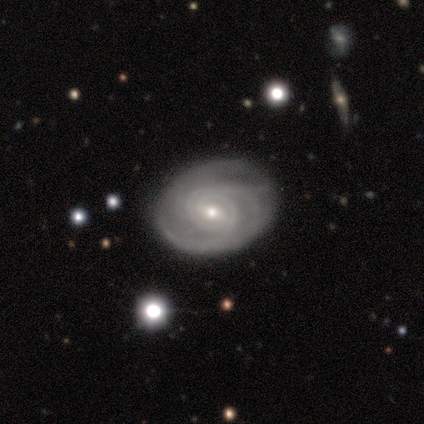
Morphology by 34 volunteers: Smooth or featured: featured or disk — 94% (smooth — 6%)
Edge-on disk: no — 97% (yes — 3%)
Bar: weak — 55% (no — 29%)
Spiral arms: yes — 97% (no — 3%)
Spiral winding: tight — 83% (medium — 13%)
Spiral arm count: 3 — 37% (can't tell — 23%)
Bulge size: small — 58% (moderate — 39%)
Merging: none — 88% (minor disturbance — 12%)